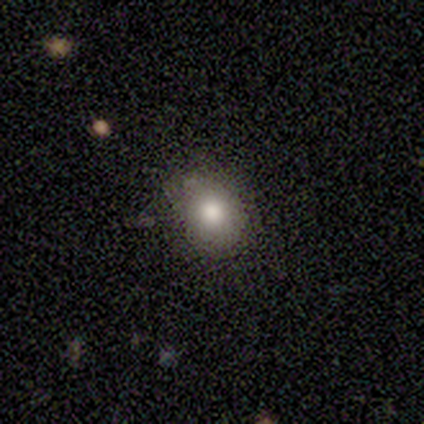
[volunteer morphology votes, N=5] Overall: smooth (100%). How rounded: round (60%; in between 40%). Merging: none (100%).